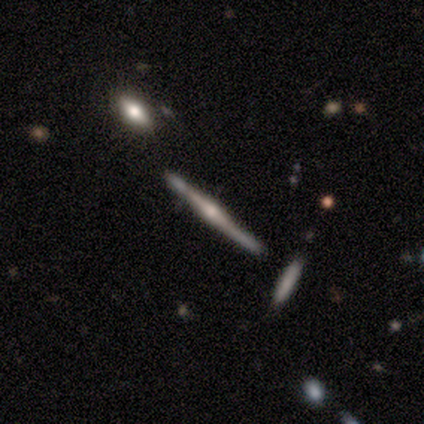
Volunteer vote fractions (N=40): featured or disk 88%, smooth 8%, star or artifact 5%. Down the decision tree: edge-on disk — yes (94%); edge-on bulge — rounded (85%); merging — none (74%).